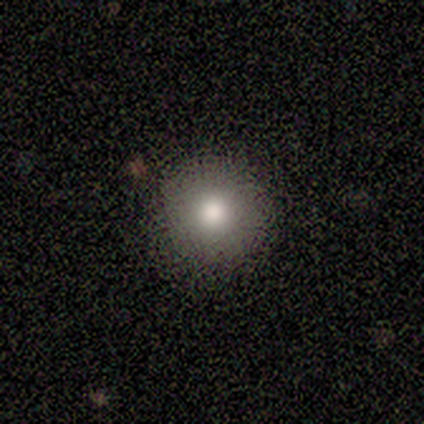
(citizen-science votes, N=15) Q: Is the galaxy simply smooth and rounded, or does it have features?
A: smooth — 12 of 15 (80%).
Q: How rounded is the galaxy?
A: round — 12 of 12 (100%).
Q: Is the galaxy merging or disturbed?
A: none — 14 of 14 (100%).